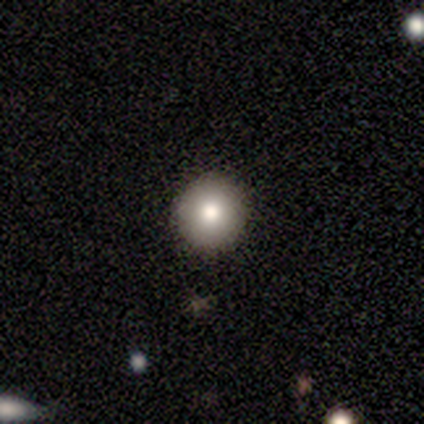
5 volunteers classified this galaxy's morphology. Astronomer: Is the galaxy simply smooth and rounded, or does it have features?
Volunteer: smooth — 80%.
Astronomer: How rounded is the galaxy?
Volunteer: round — 100%.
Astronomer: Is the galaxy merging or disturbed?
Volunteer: none — 100%.